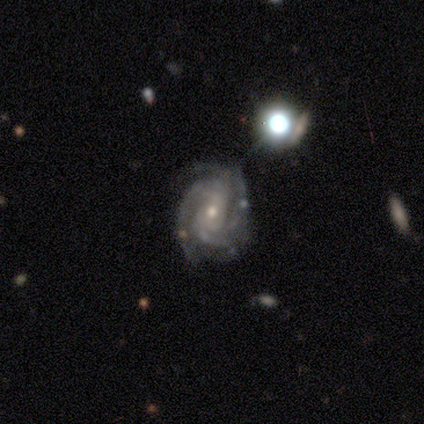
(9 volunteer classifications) Morphology: type=featured or disk (100%); edge-on=no (100%); bar=weak (56%); spiral arms=yes (100%); winding=tight (44%, tied with medium); arm count=2 (33%, tied with 3); bulge=small (56%); merging=none (67%).